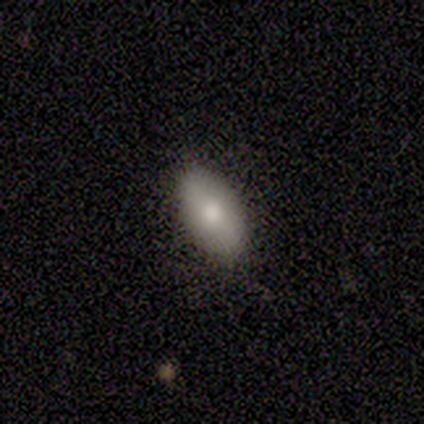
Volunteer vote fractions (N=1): Q: Smooth or featured?
A: smooth (100%)
Q: How rounded?
A: in between (100%)
Q: Merging?
A: none (100%)